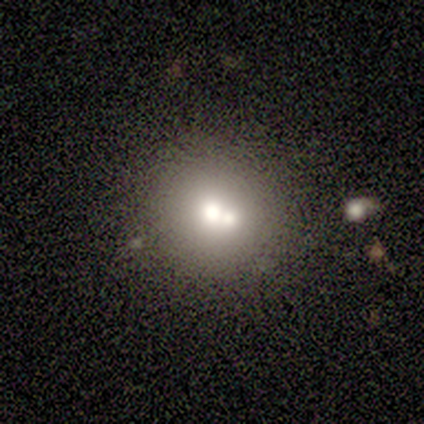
A smooth galaxy with no disk features (80%) that is round (100%). Merging: merger (50%).